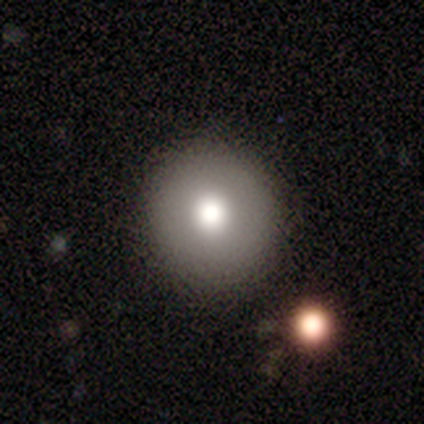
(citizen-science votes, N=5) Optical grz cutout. It shows a smooth galaxy with no disk features (60%) that is round (100%). Merging: none (80%).